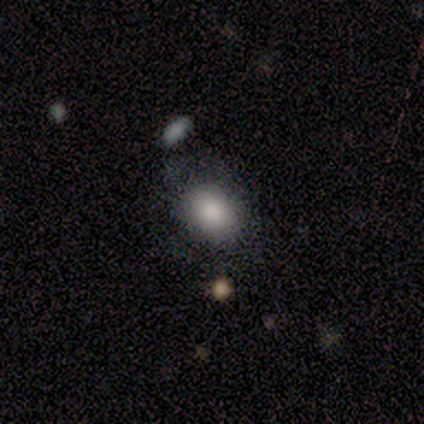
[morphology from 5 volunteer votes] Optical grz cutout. It shows a smooth galaxy with no disk features (100%) that is in between round and cigar-shaped (60%). Merging: none (60%).